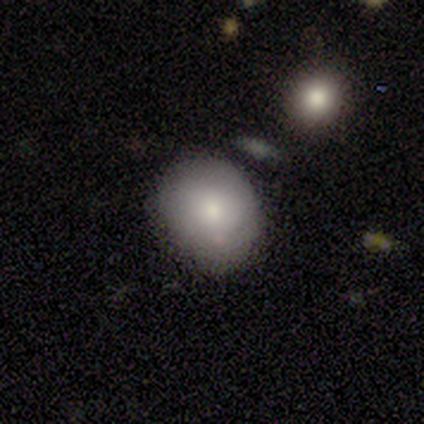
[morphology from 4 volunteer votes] Smooth or featured? 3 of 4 (75%) said smooth. How rounded? 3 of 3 (100%) said round. Merging? 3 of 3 (100%) said none.